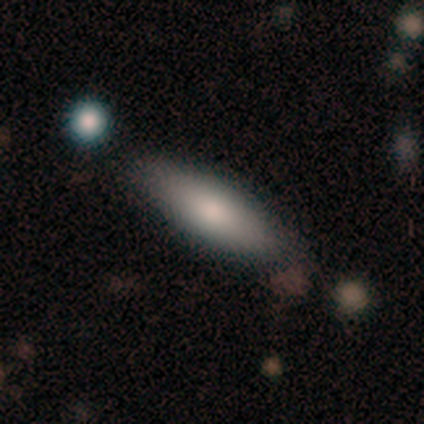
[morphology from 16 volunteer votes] smooth-or-featured: smooth: 69% | featured or disk: 31% | star or artifact: 0%
  how-rounded: in between: 55% | cigar-shaped: 45% | round: 0%
  merging: none: 81% | minor disturbance: 19% | major disturbance: 0% | merger: 0%